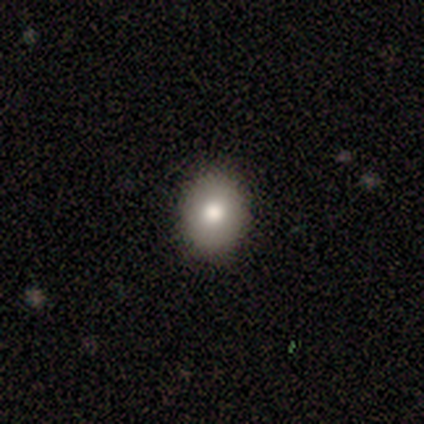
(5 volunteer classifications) Smooth or featured?
  - smooth: 60% *
  - featured or disk: 20%
  - star or artifact: 20%
How rounded?
  - round: 100% *
  - in between: 0%
  - cigar-shaped: 0%
Merging?
  - none: 100% *
  - minor disturbance: 0%
  - major disturbance: 0%
  - merger: 0%